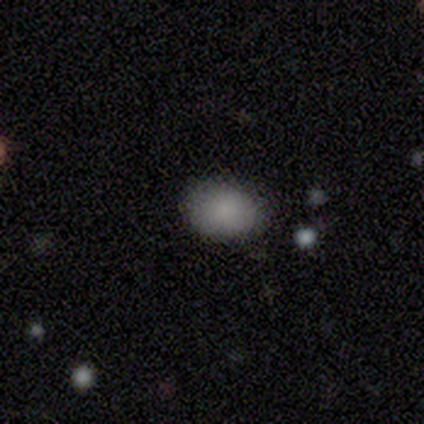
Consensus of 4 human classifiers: Morphology: type=smooth (100%); roundness=in between (100%); merging=none (75%).